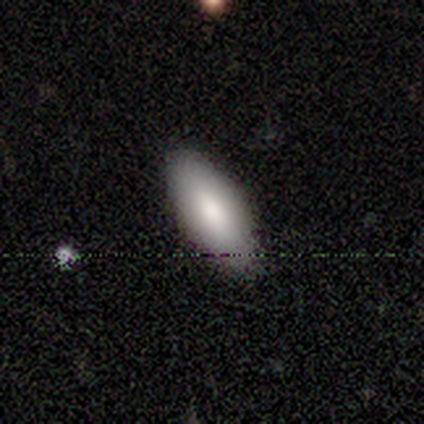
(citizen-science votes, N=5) Smooth or featured?
  - smooth: 80% *
  - featured or disk: 20%
  - star or artifact: 0%
How rounded?
  - in between: 100% *
  - round: 0%
  - cigar-shaped: 0%
Merging?
  - none: 100% *
  - minor disturbance: 0%
  - major disturbance: 0%
  - merger: 0%